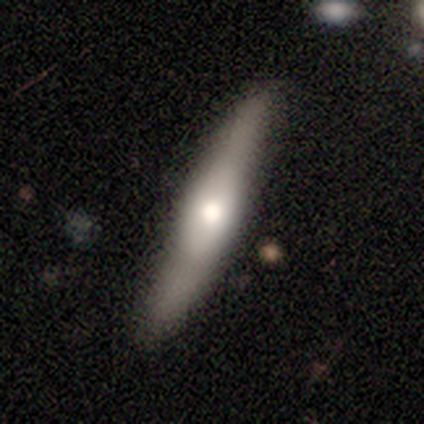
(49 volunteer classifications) Q: Smooth or featured?
A: smooth (53%); runner-up: featured or disk (45%)
Q: How rounded?
A: cigar-shaped (96%); runner-up: in between (4%)
Q: Merging?
A: none (75%); runner-up: minor disturbance (21%)